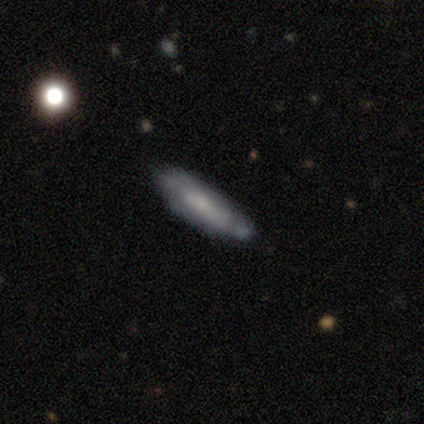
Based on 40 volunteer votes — Smooth or featured? 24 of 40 (60%) said smooth. How rounded? 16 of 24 (67%) said cigar-shaped. Merging? 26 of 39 (67%) said none.